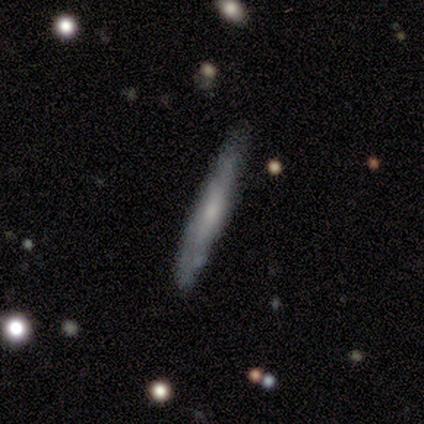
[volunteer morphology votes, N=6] Smooth or featured? smooth (50%, tied with featured or disk)
How rounded? cigar-shaped (100%)
Merging? none (83%)